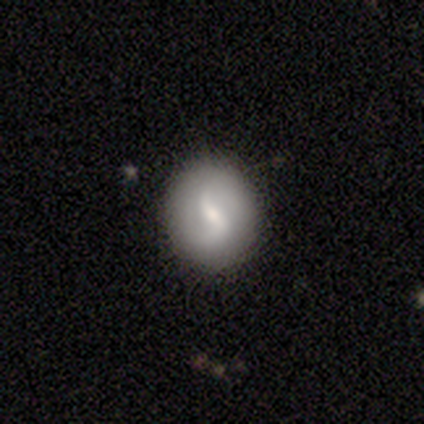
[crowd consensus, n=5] Smooth or featured? 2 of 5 (40%, tied with star or artifact) said smooth. How rounded? 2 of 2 (100%) said round. Merging? 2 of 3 (67%) said none.